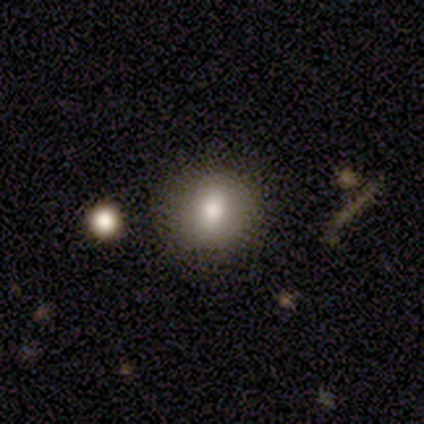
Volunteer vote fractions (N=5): Overall: smooth (100%). How rounded: round (80%). Merging: none (100%).